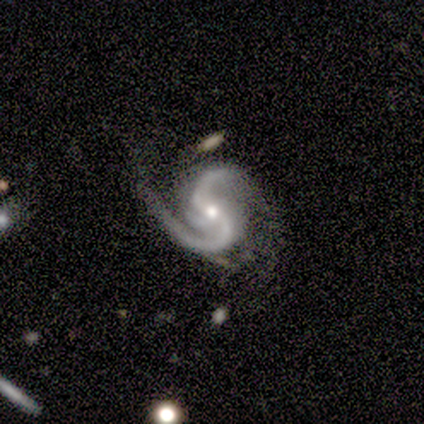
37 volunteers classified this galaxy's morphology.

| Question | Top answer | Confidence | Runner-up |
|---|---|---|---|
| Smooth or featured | featured or disk | 92% | smooth (5%) |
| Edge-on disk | no | 97% | yes (3%) |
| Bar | weak | 45% | strong (30%) |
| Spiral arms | yes | 100% | — |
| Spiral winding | medium | 64% | loose (27%) |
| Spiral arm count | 2 | 94% | 3 (6%) |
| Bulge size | moderate | 48% | small (45%) |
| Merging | none | 47% | minor disturbance (39%) |